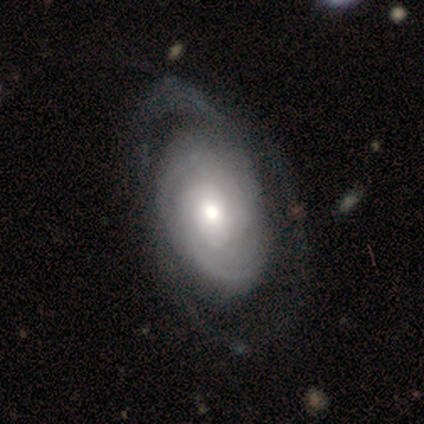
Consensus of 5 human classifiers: Q: Smooth or featured?
A: featured or disk (60%); runner-up: smooth (40%)
Q: Edge-on disk?
A: no (67%); runner-up: yes (33%)
Q: Bar?
A: no (100%)
Q: Spiral arms?
A: yes (100%)
Q: Spiral winding?
A: tight (50%); tied with: loose (50%)
Q: Spiral arm count?
A: can't tell (100%)
Q: Bulge size?
A: large (50%); tied with: moderate (50%)
Q: Merging?
A: none (80%); runner-up: minor disturbance (20%)